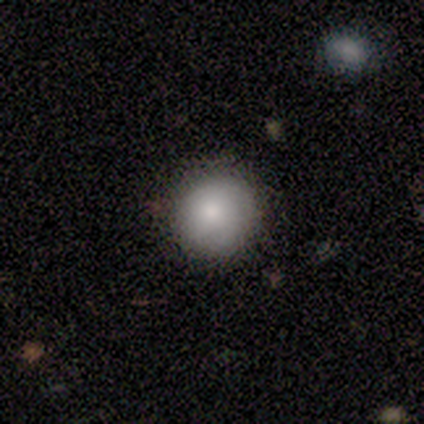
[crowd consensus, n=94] A smooth galaxy with no disk features (80%) that is round (96%).

Vote fractions:
- Smooth or featured? smooth: 80% / star or artifact: 12% / featured or disk: 9%
- How rounded? round: 96% / in between: 4% / cigar-shaped: 0%
- Merging? none: 89% / minor disturbance: 8% / major disturbance: 1% / merger: 1%